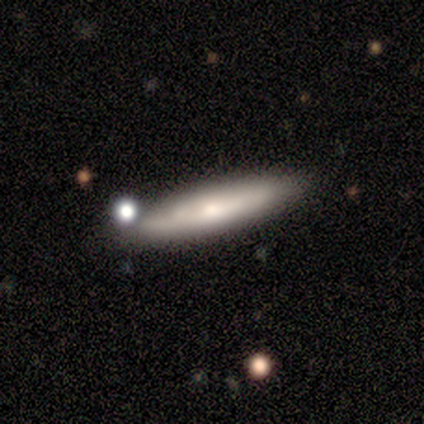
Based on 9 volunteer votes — This appears to be a featured or disk galaxy (67%) viewed edge-on (83%) with no central bulge (40%, tied with rounded). Merging: none (89%).